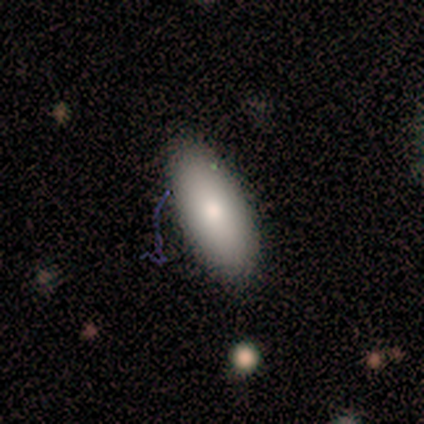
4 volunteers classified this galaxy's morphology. Q: Smooth or featured?
A: smooth (100%)
Q: How rounded?
A: in between (100%)
Q: Merging?
A: none (50%); tied with: minor disturbance (50%)